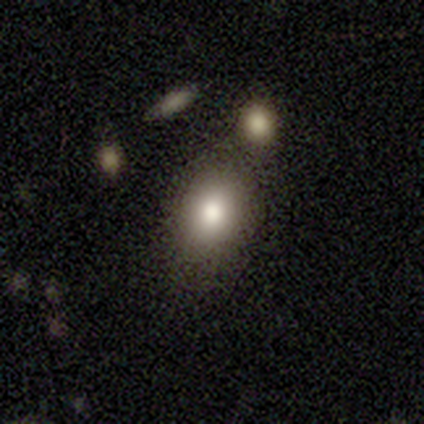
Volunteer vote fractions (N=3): Smooth or featured? 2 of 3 (67%) said smooth. How rounded? 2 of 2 (100%) said in between. Merging? 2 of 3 (67%) said merger.